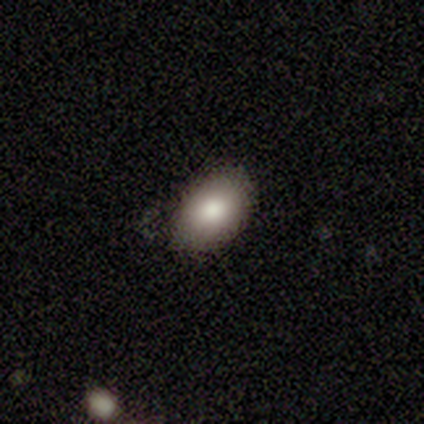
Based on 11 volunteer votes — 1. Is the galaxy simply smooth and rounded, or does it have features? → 73% smooth, 18% featured or disk, 9% star or artifact.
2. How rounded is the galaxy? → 100% in between, 0% round, 0% cigar-shaped.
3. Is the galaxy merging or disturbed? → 80% none, 20% minor disturbance, 0% major disturbance, 0% merger.